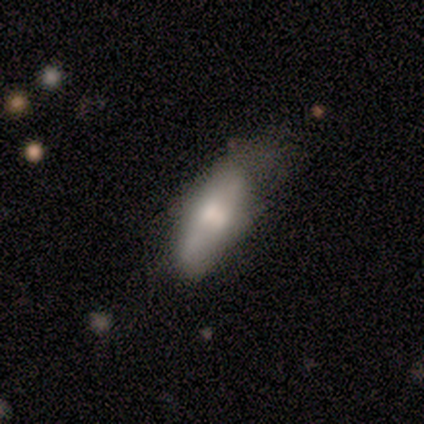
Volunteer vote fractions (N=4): Smooth or featured?
  - smooth: 50% * (tied)
  - featured or disk: 50% * (tied)
  - star or artifact: 0%
How rounded?
  - in between: 50% * (tied)
  - cigar-shaped: 50% * (tied)
  - round: 0%
Merging?
  - minor disturbance: 50% *
  - none: 25%
  - major disturbance: 25%
  - merger: 0%